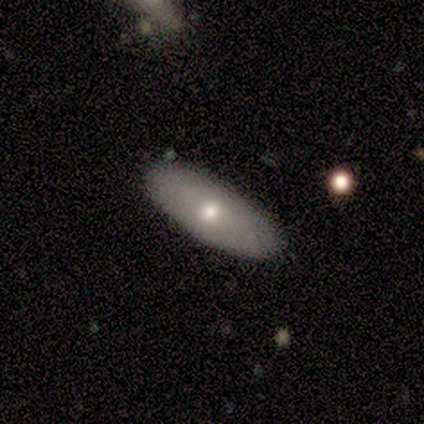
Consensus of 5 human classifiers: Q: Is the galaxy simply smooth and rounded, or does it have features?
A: smooth — 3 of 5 (60%).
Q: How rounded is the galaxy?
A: in between — 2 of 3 (67%).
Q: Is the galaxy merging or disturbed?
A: none — 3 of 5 (60%).